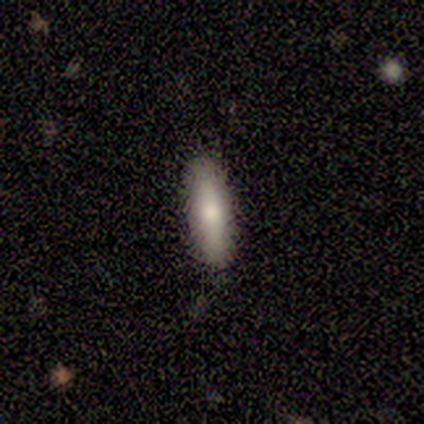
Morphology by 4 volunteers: Overall: smooth (75%). How rounded: cigar-shaped (67%; in between 33%). Merging: none (100%).